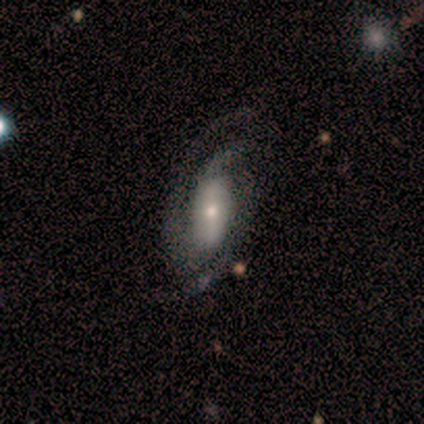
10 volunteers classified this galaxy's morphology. This is clearly a featured or disk galaxy (80%). It is clearly not viewed edge-on (88%). Bar: possibly no (57%). Spiral arm pattern: clearly yes (100%). Spiral arm count: possibly 3 (57%). Spiral winding: possibly medium (57%). Central bulge: likely small (71%). Merging: possibly none (50%).